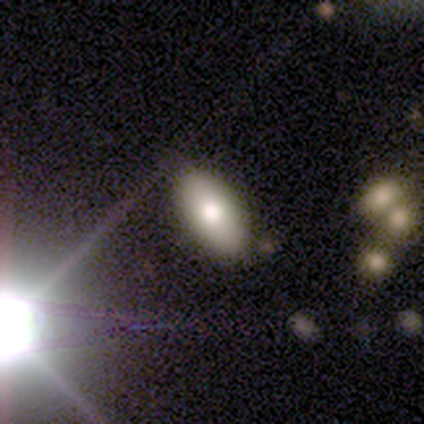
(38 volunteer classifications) Smooth or featured? smooth (68%)
How rounded? in between (88%)
Merging? none (83%)